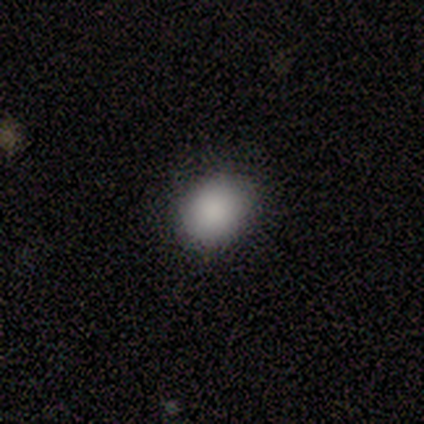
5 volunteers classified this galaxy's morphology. This appears to be a smooth galaxy with no disk features (100%) that is in between round and cigar-shaped (60%). Merging: none (80%).